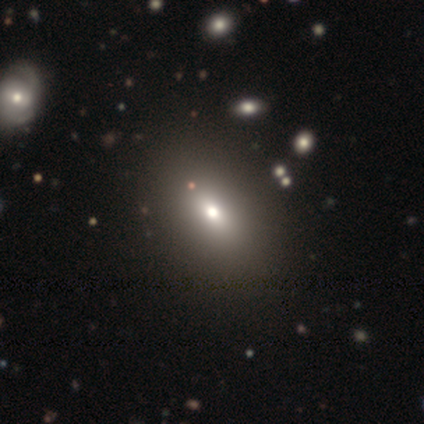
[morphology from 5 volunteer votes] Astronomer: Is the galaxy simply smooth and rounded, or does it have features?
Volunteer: smooth — 80%.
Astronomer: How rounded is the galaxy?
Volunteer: in between — 75%.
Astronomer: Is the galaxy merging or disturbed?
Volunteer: none — 60%.